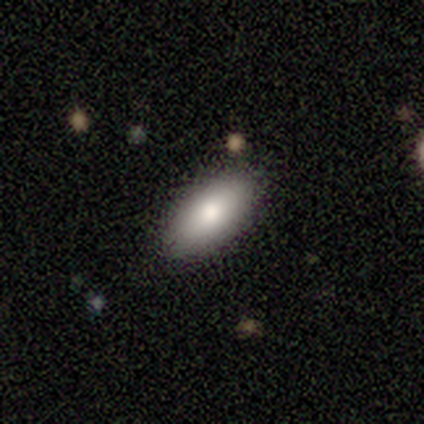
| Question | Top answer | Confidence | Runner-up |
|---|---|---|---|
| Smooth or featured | smooth | 80% | featured or disk (20%) |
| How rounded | in between | 50% | tied: cigar-shaped (50%) |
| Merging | none | 80% | minor disturbance (20%) |